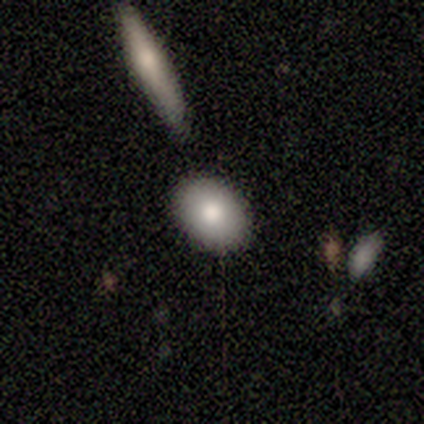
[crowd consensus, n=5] A smooth galaxy with no disk features (80%) that is in between round and cigar-shaped (100%).

Vote fractions:
- Smooth or featured? smooth: 80% / star or artifact: 20% / featured or disk: 0%
- How rounded? in between: 100% / round: 0% / cigar-shaped: 0%
- Merging? none: 100% / minor disturbance: 0% / major disturbance: 0% / merger: 0%